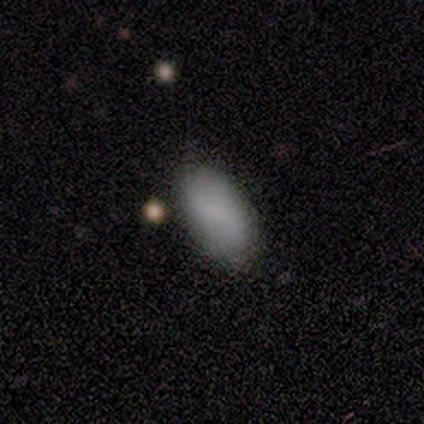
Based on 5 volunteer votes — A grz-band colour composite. It shows a smooth galaxy with no disk features (100%) that is in between round and cigar-shaped (100%). Merging: none (80%).